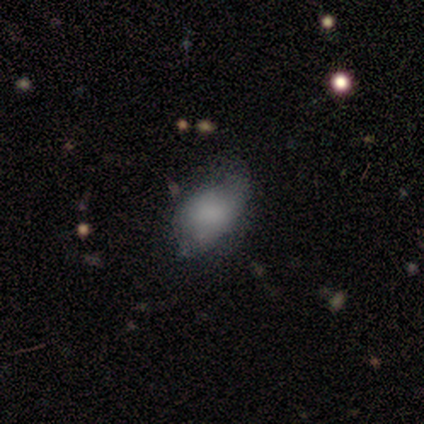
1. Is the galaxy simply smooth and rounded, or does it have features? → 100% smooth, 0% featured or disk, 0% star or artifact.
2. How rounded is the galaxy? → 60% in between, 40% round, 0% cigar-shaped.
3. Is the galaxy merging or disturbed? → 40% none (tied), 40% minor disturbance (tied), 20% major disturbance, 0% merger.